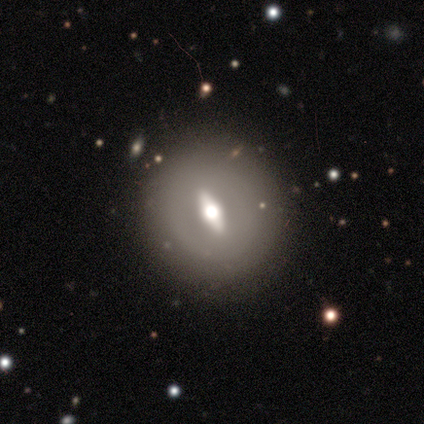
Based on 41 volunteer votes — Morphology: type=featured or disk (76%); edge-on=no (74%); bar=strong (70%); spiral arms=no (83%); bulge=moderate (70%); merging=none (82%).